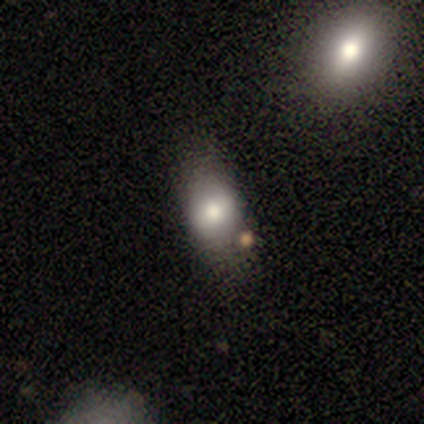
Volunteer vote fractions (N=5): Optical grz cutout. It shows a smooth galaxy with no disk features (100%) that is in between round and cigar-shaped (60%). Merging: none (60%).